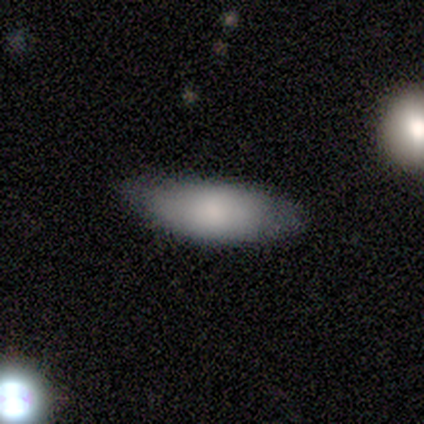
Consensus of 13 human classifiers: A smooth galaxy with no disk features (92%) that is in between round and cigar-shaped (100%). Merging: none (69%).